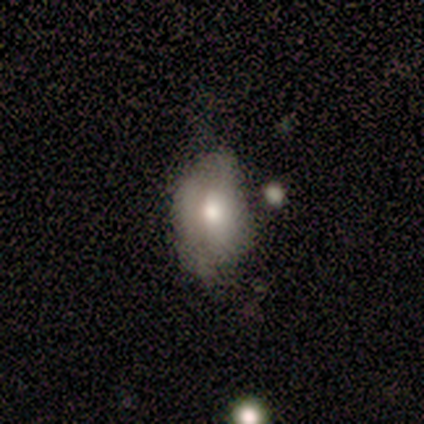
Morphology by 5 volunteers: A smooth galaxy with no disk features (60%) that is in between round and cigar-shaped (100%).

Vote fractions:
- Smooth or featured? smooth: 60% / featured or disk: 20% / star or artifact: 20%
- How rounded? in between: 100% / round: 0% / cigar-shaped: 0%
- Merging? none: 75% / merger: 25% / minor disturbance: 0% / major disturbance: 0%